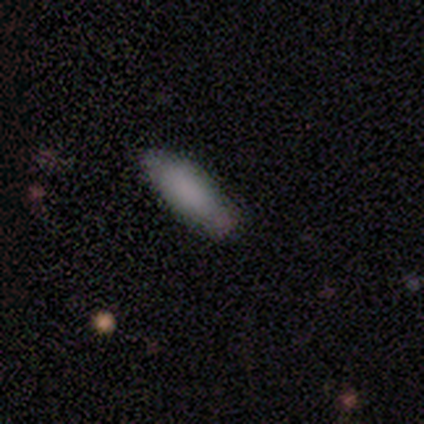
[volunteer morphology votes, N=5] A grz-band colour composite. It shows a smooth galaxy with no disk features (80%) that is in between round and cigar-shaped (75%). Merging: none (80%).